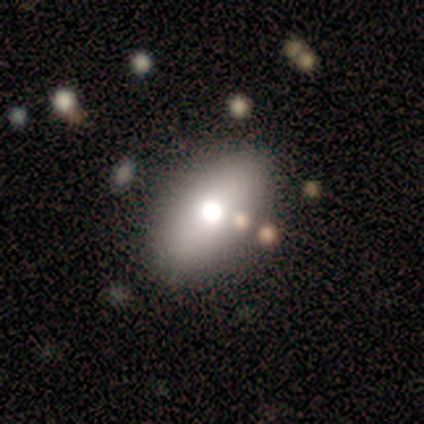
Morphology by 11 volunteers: Smooth or featured: smooth — 64% (featured or disk — 18%)
How rounded: in between — 100%
Merging: none — 56% (merger — 33%)